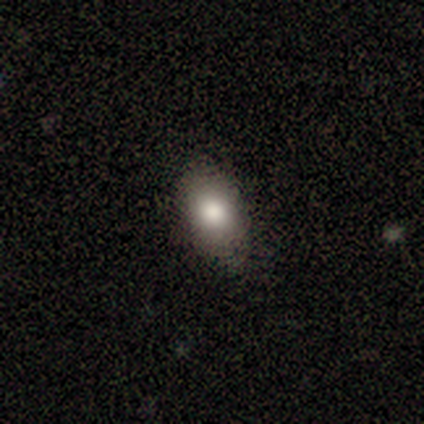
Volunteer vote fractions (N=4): A smooth galaxy with no disk features (75%) that is in between round and cigar-shaped (67%).

Vote fractions:
- Smooth or featured? smooth: 75% / featured or disk: 25% / star or artifact: 0%
- How rounded? in between: 67% / round: 33% / cigar-shaped: 0%
- Merging? none: 100% / minor disturbance: 0% / major disturbance: 0% / merger: 0%